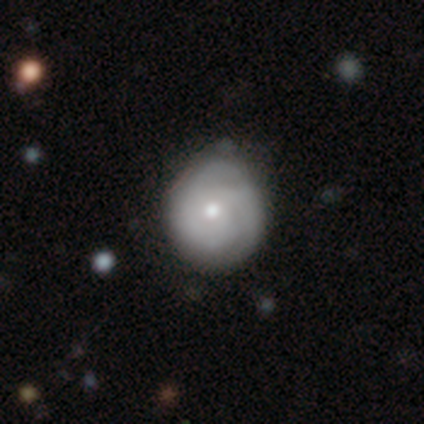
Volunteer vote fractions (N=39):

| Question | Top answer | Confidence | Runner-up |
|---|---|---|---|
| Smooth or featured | featured or disk | 77% | smooth (23%) |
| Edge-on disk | no | 100% | — |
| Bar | no | 87% | weak (10%) |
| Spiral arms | yes | 83% | no (17%) |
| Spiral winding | tight | 64% | medium (32%) |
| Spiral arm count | can't tell | 40% | 2 (28%) |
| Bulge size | moderate | 70% | small (23%) |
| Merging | none | 33% | minor disturbance (23%) |